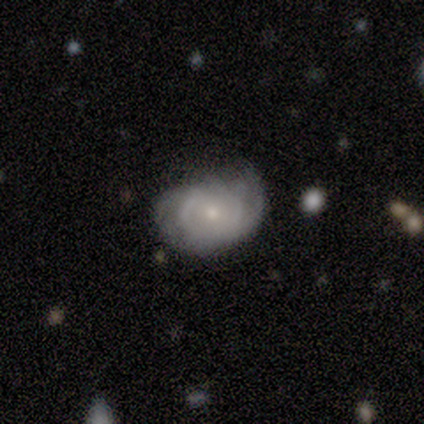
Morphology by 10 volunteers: Q: Smooth or featured?
A: featured or disk (70%); runner-up: smooth (30%)
Q: Edge-on disk?
A: no (100%)
Q: Bar?
A: no (100%)
Q: Spiral arms?
A: yes (86%); runner-up: no (14%)
Q: Spiral winding?
A: tight (67%); runner-up: medium (33%)
Q: Spiral arm count?
A: 2 (50%); tied with: can't tell (50%)
Q: Bulge size?
A: small (57%); runner-up: moderate (43%)
Q: Merging?
A: none (60%); runner-up: minor disturbance (20%)